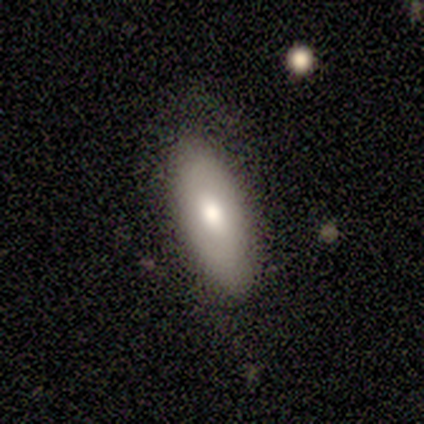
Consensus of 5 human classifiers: Smooth or featured: smooth — 80% (featured or disk — 20%)
How rounded: in between — 75% (cigar-shaped — 25%)
Merging: none — 80% (major disturbance — 20%)